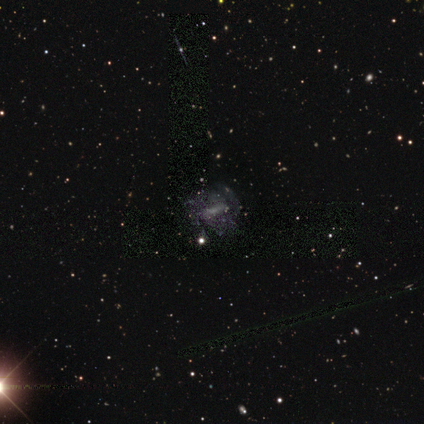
Overall: featured or disk (60%; star or artifact 40%). Edge-on disk: no (100%). Bar: weak (100%). Spiral arms: yes (100%). Spiral arm count: 3 (33%, tied with 4 and can't tell). Spiral winding: tight (67%; medium 33%). Bulge size: none (67%; moderate 33%). Merging: minor disturbance (67%; none 33%).